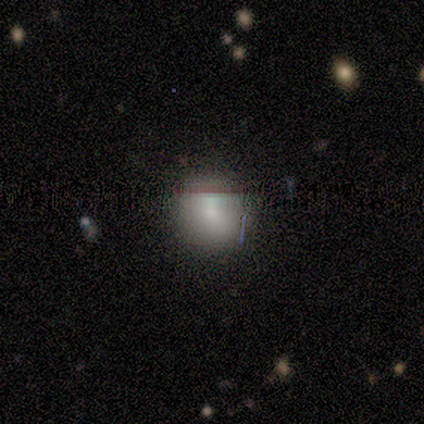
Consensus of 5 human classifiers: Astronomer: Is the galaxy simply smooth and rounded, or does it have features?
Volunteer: smooth — 100%.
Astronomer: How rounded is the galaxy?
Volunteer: round — 80%.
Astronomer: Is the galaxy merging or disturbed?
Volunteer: none — 80%.